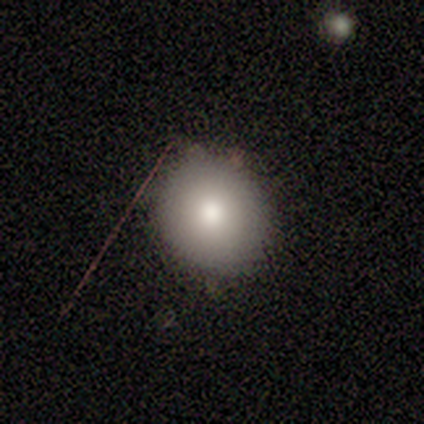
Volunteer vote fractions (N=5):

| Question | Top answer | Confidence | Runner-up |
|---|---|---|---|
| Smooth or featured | smooth | 80% | featured or disk (20%) |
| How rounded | round | 75% | in between (25%) |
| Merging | none | 100% | — |